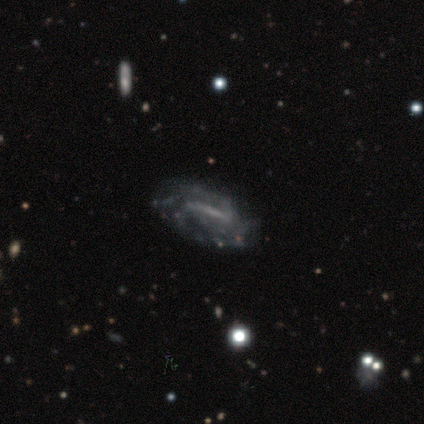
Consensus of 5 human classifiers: Smooth or featured? featured or disk (60%)
Edge-on disk? no (100%)
Bar? strong (67%)
Spiral arms? yes (100%)
Spiral winding? tight (67%)
Spiral arm count? 2 (33%, tied with 4 and can't tell)
Bulge size? small (67%)
Merging? none (100%)